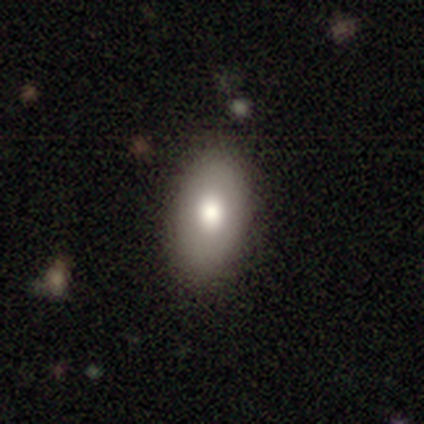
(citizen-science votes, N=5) This is clearly a smooth galaxy (80%). How rounded: clearly in between (100%). Merging: clearly none (100%).